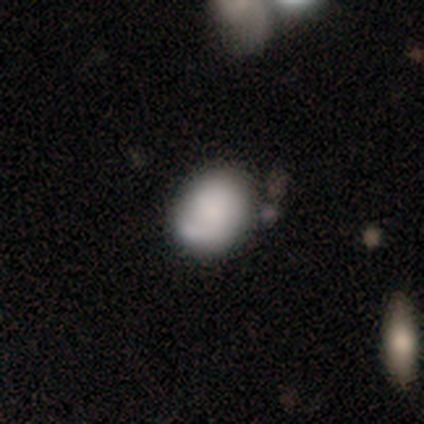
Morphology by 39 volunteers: smooth 49% (tied), featured or disk 49% (tied), star or artifact 3%. Down the decision tree: how rounded — in between (58%); merging — none (55%).